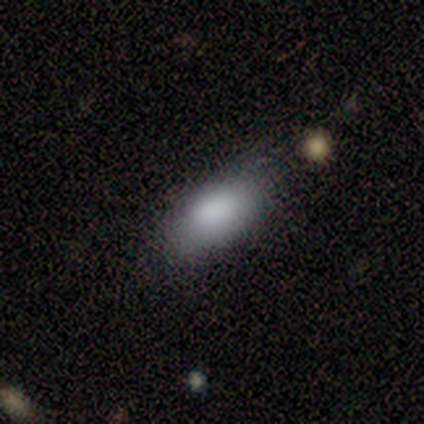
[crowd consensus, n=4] Overall: smooth (100%). How rounded: in between (75%). Merging: none (100%).